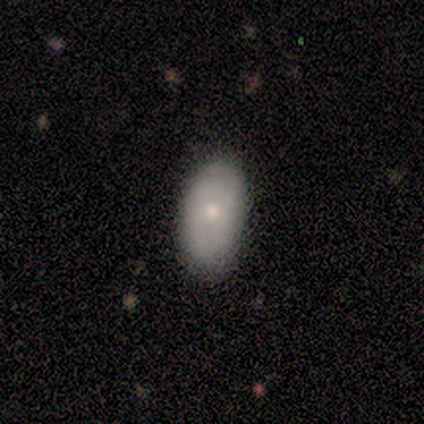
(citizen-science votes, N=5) Smooth or featured: smooth — 80% (featured or disk — 20%)
How rounded: in between — 100%
Merging: none — 80% (minor disturbance — 20%)